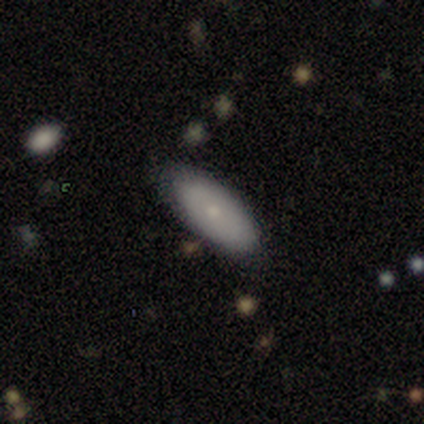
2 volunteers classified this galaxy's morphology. Volunteers were most divided on "smooth or featured" (2-way tie): smooth: 50%, featured or disk: 50%, star or artifact: 0%; "merging" (2-way tie): none: 50%, minor disturbance: 50%, major disturbance: 0%, merger: 0%. More confident: how rounded — in between (100%).